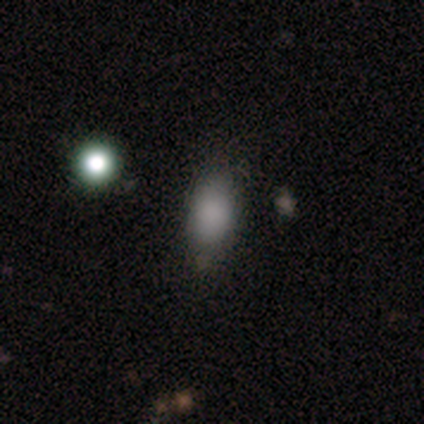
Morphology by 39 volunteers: Q: Smooth or featured?
A: smooth (87%); runner-up: star or artifact (8%)
Q: How rounded?
A: in between (91%); runner-up: round (6%)
Q: Merging?
A: none (83%); runner-up: minor disturbance (14%)